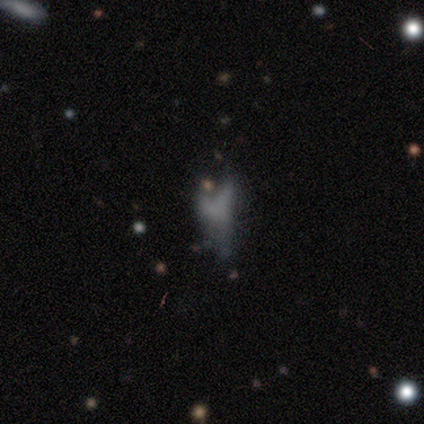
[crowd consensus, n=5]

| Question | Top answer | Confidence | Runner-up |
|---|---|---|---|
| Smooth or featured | smooth | 40% | tied: star or artifact (40%) |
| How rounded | in between | 50% | tied: cigar-shaped (50%) |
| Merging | major disturbance | 67% | merger (33%) |